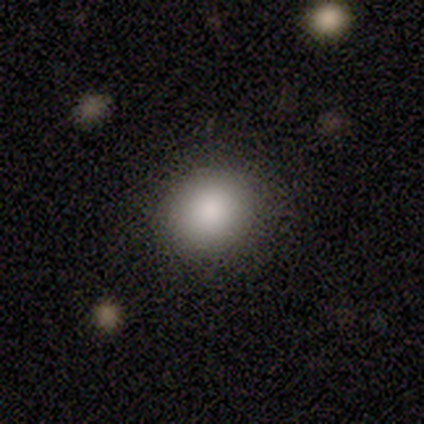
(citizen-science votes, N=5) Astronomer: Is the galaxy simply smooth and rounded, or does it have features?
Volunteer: smooth — 100%.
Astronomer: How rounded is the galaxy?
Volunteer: round — 100%.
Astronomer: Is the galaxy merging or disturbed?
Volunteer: none — 100%.